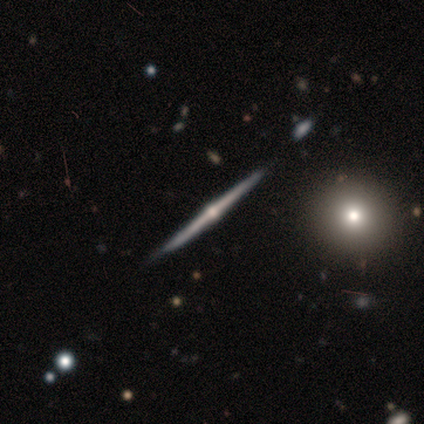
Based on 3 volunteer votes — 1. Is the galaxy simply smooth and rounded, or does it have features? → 67% featured or disk, 33% smooth, 0% star or artifact.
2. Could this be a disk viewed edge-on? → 100% yes, 0% no.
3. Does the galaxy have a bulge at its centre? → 100% rounded, 0% boxy, 0% none.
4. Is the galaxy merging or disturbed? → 67% none, 33% major disturbance, 0% minor disturbance, 0% merger.